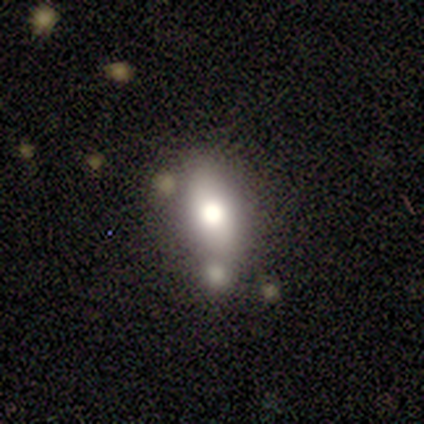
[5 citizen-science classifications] Q: Smooth or featured?
A: smooth (60%); runner-up: featured or disk (40%)
Q: How rounded?
A: round (67%); runner-up: in between (33%)
Q: Merging?
A: none (80%); runner-up: major disturbance (20%)